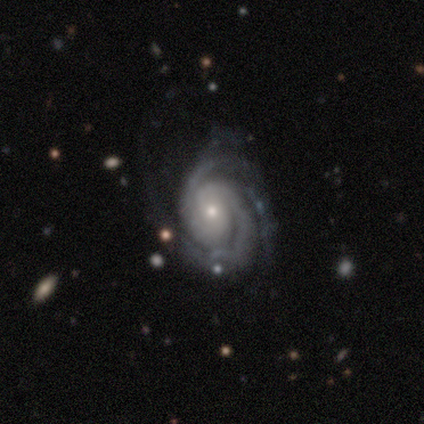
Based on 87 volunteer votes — Smooth or featured?
  - featured or disk: 94% *
  - smooth: 3%
  - star or artifact: 2%
Edge-on disk?
  - no: 94% *
  - yes: 6%
Bar?
  - no: 65% *
  - weak: 25%
  - strong: 10%
Spiral arms?
  - yes: 100% *
  - no: 0%
Spiral winding?
  - tight: 82% *
  - medium: 17%
  - loose: 1%
Spiral arm count?
  - 3: 43% *
  - 2: 39%
  - can't tell: 10%
  - 4: 6%
  - more than 4: 1%
  - 1: 0%
Bulge size?
  - small: 57% *
  - moderate: 40%
  - none: 3%
  - dominant: 0%
  - large: 0%
Merging?
  - none: 60% *
  - minor disturbance: 19%
  - major disturbance: 16%
  - merger: 5%